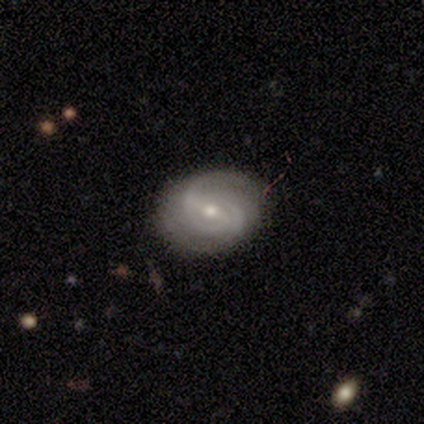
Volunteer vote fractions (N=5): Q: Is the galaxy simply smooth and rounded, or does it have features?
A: featured or disk — 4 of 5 (80%).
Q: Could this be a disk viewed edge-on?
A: no — 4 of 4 (100%).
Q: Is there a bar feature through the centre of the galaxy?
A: strong — 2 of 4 (50%).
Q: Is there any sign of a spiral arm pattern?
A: yes — 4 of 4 (100%).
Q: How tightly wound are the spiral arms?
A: tight — 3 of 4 (75%).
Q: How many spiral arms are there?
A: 2 — 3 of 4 (75%).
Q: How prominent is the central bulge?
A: moderate — 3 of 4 (75%).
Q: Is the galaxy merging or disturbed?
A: none — 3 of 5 (60%).